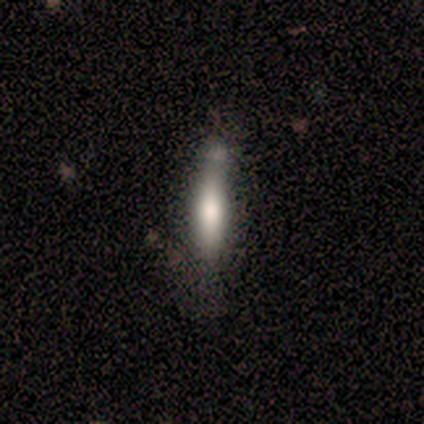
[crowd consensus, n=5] Morphology: type=smooth (100%); roundness=cigar-shaped (100%); merging=none (40%, tied with minor disturbance).